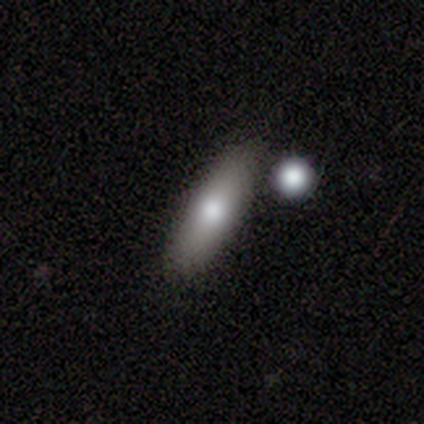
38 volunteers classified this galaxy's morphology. This is likely a smooth galaxy (71%). How rounded: possibly in between (56%). Merging: likely none (66%).